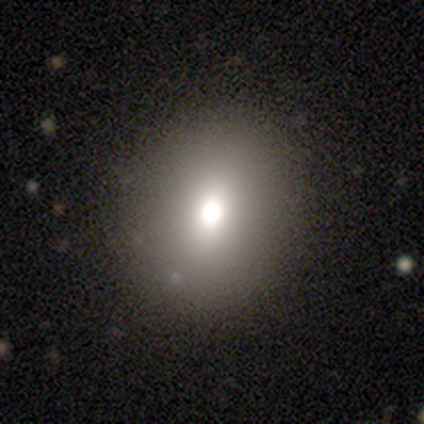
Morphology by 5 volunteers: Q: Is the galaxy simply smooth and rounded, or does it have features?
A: smooth — 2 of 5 (40%, tied with featured or disk).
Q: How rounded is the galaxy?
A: round — 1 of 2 (50%, tied with in between).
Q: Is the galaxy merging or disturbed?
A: none — 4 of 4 (100%).